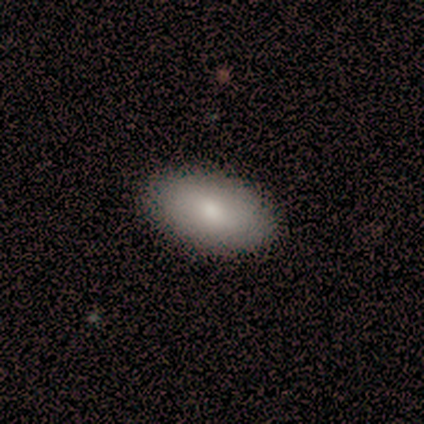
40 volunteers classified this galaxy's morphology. smooth_or_featured: smooth (p=0.88) [alt: featured or disk p=0.10]
how_rounded: in between (p=0.94) [alt: round p=0.03]
merging: none (p=0.74) [alt: major disturbance p=0.03]